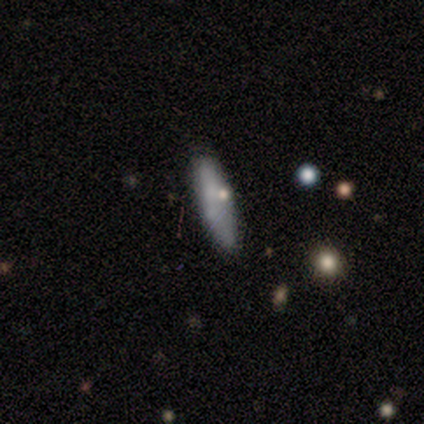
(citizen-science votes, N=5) Smooth or featured: smooth — 80% (featured or disk — 20%)
How rounded: in between — 50% (tied with cigar-shaped — 50%)
Merging: none — 60% (minor disturbance — 20%)